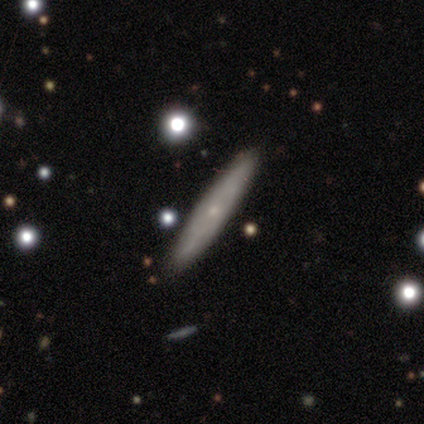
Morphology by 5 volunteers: Smooth or featured? smooth (60%)
How rounded? cigar-shaped (100%)
Merging? none (80%)